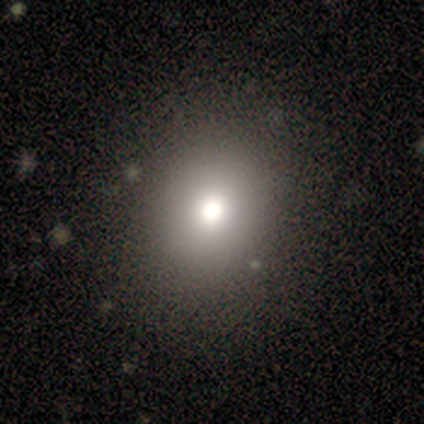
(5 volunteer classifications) This is clearly a smooth galaxy (80%). How rounded: possibly round (50%, tied with in between). Merging: clearly none (80%).